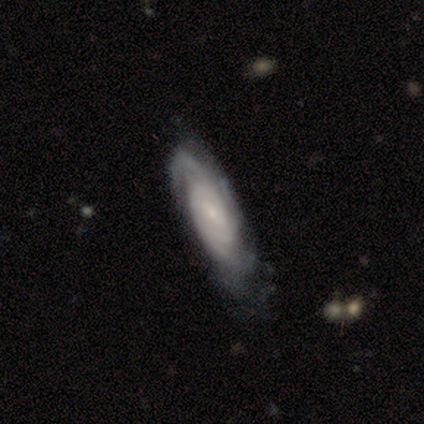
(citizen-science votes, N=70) featured or disk 89%, star or artifact 9%, smooth 3%. Down the decision tree: edge-on disk — no (89%); bar — no (51%); spiral arms — yes (93%); spiral arm count — 3 (37%); spiral winding — tight (63%); bulge size — small (69%); merging — none (58%).